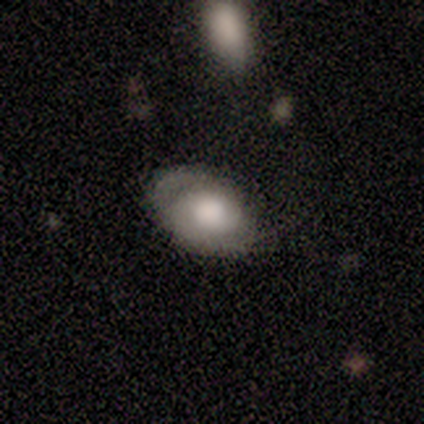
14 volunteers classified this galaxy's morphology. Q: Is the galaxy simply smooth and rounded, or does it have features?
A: smooth — 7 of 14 (50%).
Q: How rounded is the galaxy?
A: in between — 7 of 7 (100%).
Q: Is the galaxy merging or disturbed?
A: none — 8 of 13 (62%).